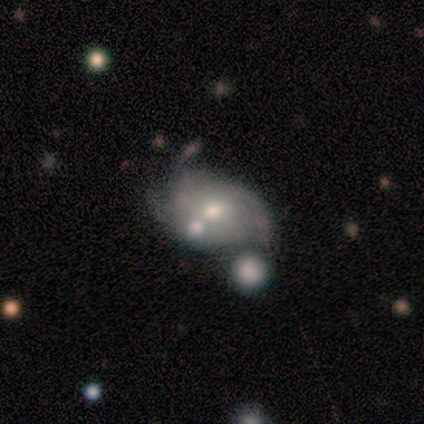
Morphology: type=smooth (50%, tied with featured or disk); roundness=in between (100%); merging=none (25%, tied with minor disturbance, major disturbance and merger).